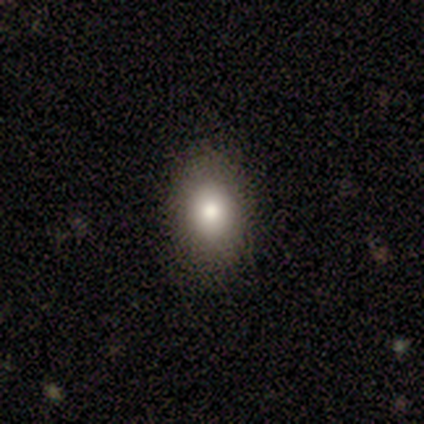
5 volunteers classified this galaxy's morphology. smooth_or_featured: smooth (p=1.00)
how_rounded: round (p=0.60) [alt: in between p=0.40]
merging: none (p=0.80) [alt: minor disturbance p=0.20]